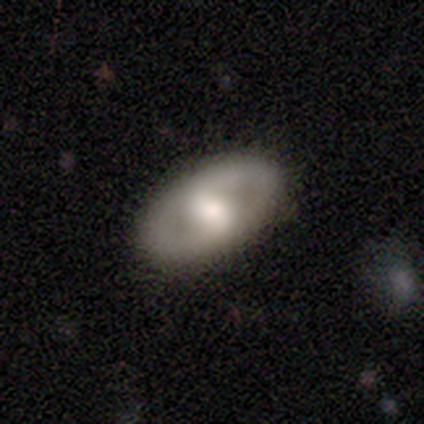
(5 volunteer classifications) Smooth or featured? 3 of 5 (60%) said featured or disk. Edge-on disk? 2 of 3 (67%) said no. Bar? 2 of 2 (100%) said no. Spiral arms? 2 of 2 (100%) said no. Bulge size? 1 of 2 (50%, tied with moderate) said large. Merging? 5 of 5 (100%) said none.